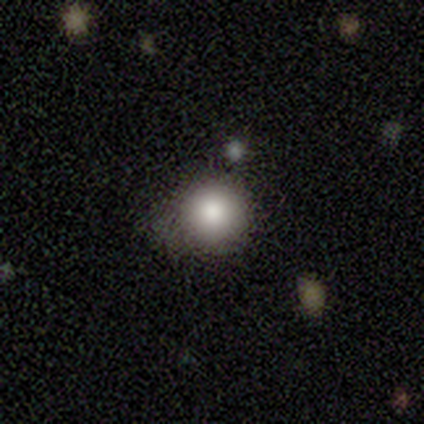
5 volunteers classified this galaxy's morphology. smooth_or_featured: smooth (p=0.80) [alt: featured or disk p=0.20]
how_rounded: round (p=0.75) [alt: in between p=0.25]
merging: none (p=0.40) [tied with: minor disturbance p=0.40]